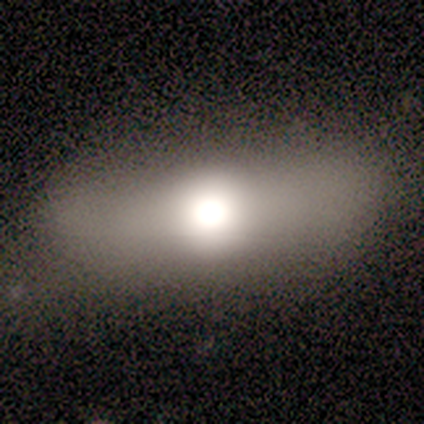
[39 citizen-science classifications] Smooth or featured?
  - smooth: 69% *
  - featured or disk: 23%
  - star or artifact: 8%
How rounded?
  - in between: 48% *
  - cigar-shaped: 44%
  - round: 7%
Merging?
  - none: 78% *
  - minor disturbance: 22%
  - major disturbance: 0%
  - merger: 0%